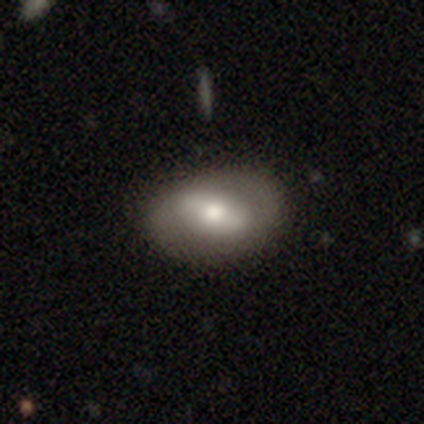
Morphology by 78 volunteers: Smooth or featured?
  - smooth: 47% *
  - featured or disk: 44%
  - star or artifact: 9%
How rounded?
  - in between: 92% *
  - round: 8%
  - cigar-shaped: 0%
Merging?
  - none: 52% *
  - minor disturbance: 11%
  - major disturbance: 1%
  - merger: 0%